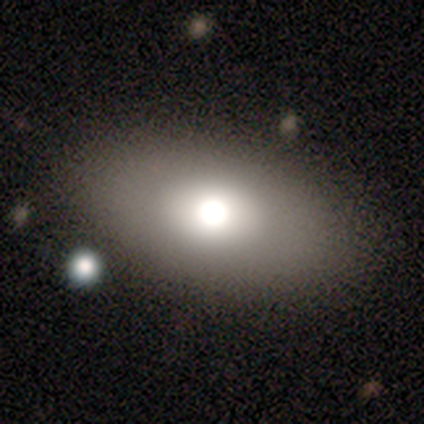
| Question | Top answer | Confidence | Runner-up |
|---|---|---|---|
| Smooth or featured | smooth | 64% | featured or disk (26%) |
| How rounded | in between | 92% | round (4%) |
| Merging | none | 86% | minor disturbance (6%) |